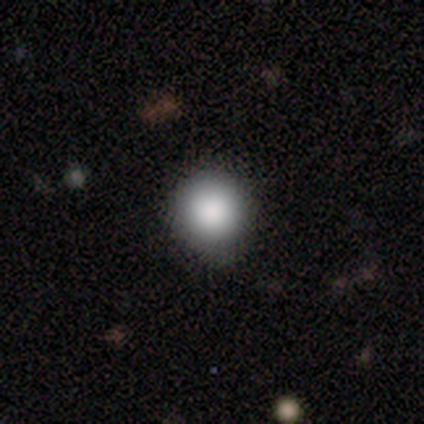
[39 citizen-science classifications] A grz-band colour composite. It shows a smooth galaxy with no disk features (72%) that is round (100%). Merging: none (44%).